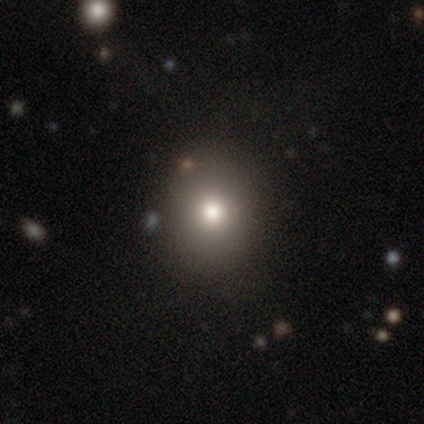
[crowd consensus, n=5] A smooth galaxy with no disk features (80%) that is round (100%). Merging: none (80%).